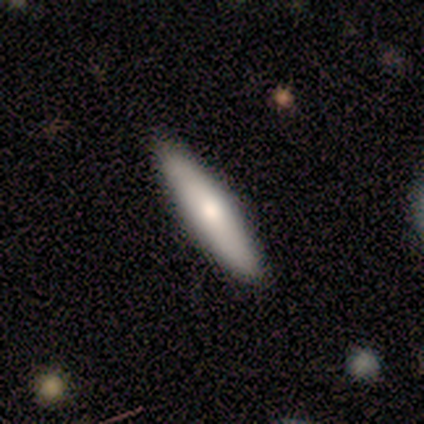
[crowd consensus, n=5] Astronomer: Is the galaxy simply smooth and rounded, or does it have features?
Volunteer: smooth — 100%.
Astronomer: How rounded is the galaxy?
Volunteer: cigar-shaped — 100%.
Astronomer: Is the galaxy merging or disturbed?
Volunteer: none — 100%.